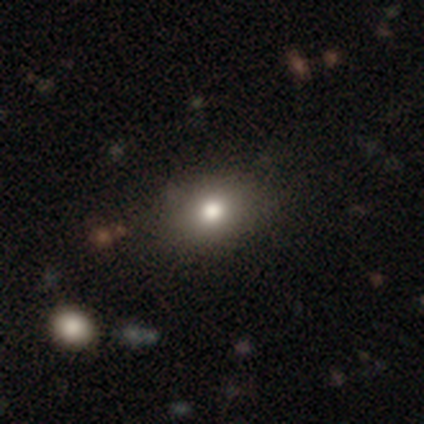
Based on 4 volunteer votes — Smooth or featured: smooth — 100%
How rounded: round — 50% (tied with in between — 50%)
Merging: none — 100%